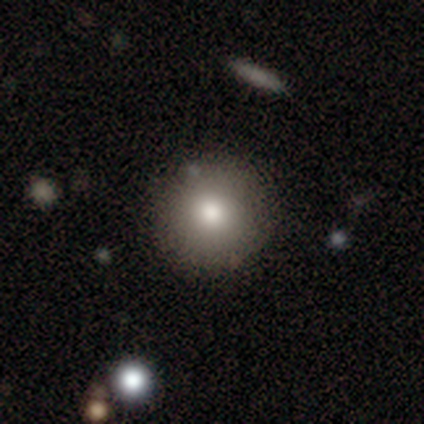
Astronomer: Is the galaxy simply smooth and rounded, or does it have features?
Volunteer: smooth — 85%.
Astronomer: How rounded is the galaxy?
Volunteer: round — 94%.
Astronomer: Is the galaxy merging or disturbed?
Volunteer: none — 89%.